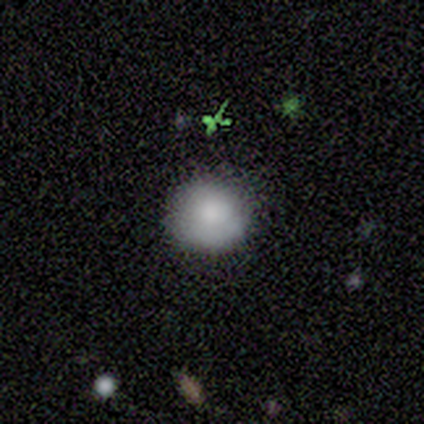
Q: Smooth or featured?
A: smooth (100%)
Q: How rounded?
A: round (100%)
Q: Merging?
A: none (80%); runner-up: minor disturbance (20%)